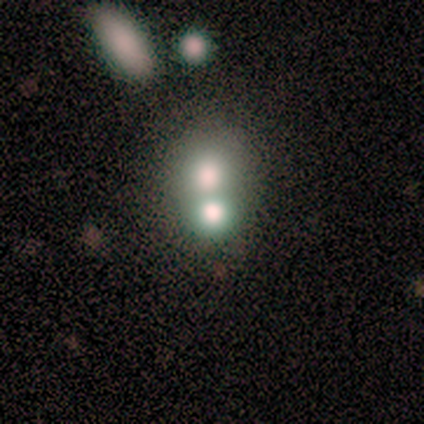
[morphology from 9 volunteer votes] type=smooth (56%); roundness=round (80%); merging=merger (57%).